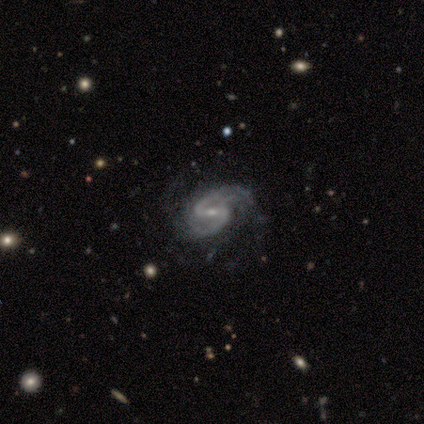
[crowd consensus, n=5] smooth-or-featured: featured or disk: 100% | smooth: 0% | star or artifact: 0%
  disk-edge-on: no: 100% | yes: 0%
    bar: weak: 40% (tied) | no: 40% (tied) | strong: 20%
    has-spiral-arms: yes: 100% | no: 0%
      spiral-winding: medium: 60% | loose: 40% | tight: 0%
      spiral-arm-count: 2: 100% | 1: 0% | 3: 0% | 4: 0% | more than 4: 0% | can't tell: 0%
    bulge-size: small: 80% | moderate: 20% | dominant: 0% | large: 0% | none: 0%
  merging: minor disturbance: 60% | none: 20% | major disturbance: 20% | merger: 0%